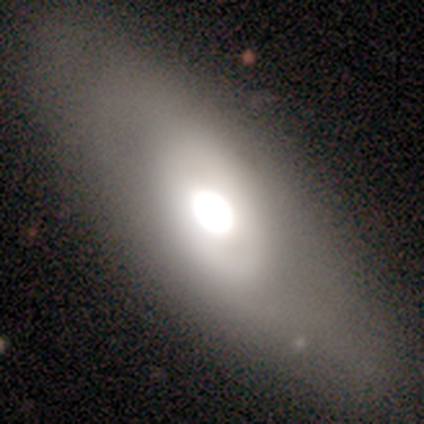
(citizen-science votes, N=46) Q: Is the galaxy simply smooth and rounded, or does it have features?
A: smooth — 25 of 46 (54%).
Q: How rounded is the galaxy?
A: in between — 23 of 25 (92%).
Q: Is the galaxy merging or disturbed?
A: none — 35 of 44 (80%).